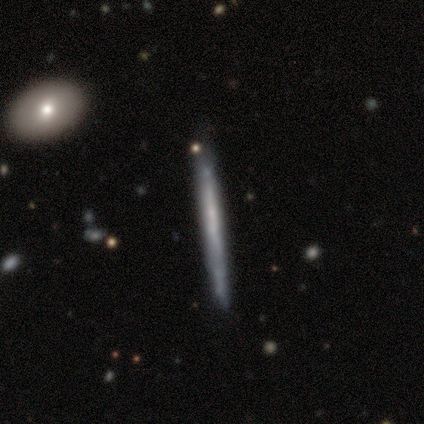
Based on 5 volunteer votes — This appears to be a featured or disk galaxy (100%) viewed edge-on (100%) with no central bulge (100%). Merging: none (80%).